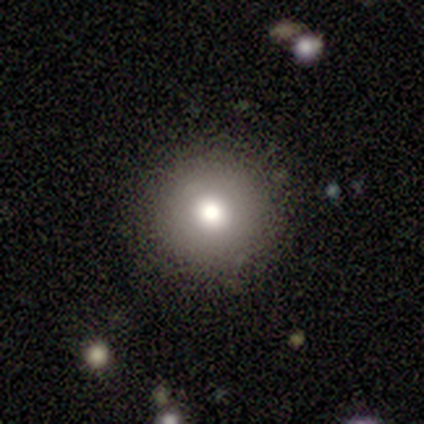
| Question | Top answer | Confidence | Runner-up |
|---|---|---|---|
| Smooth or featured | smooth | 100% | — |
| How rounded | round | 100% | — |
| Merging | none | 80% | minor disturbance (20%) |